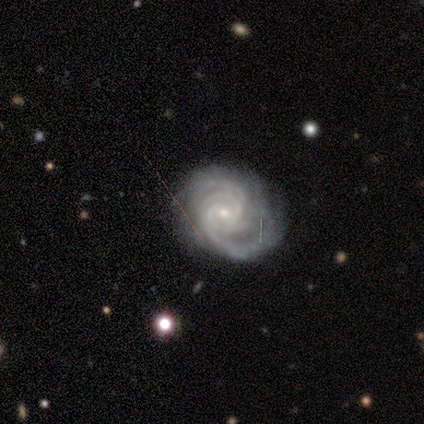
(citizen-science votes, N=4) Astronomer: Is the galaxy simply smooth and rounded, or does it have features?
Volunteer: featured or disk — 50%, tied with star or artifact at 50%.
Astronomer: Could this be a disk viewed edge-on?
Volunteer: no — 100%.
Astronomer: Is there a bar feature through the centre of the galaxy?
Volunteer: weak — 50%, tied with no at 50%.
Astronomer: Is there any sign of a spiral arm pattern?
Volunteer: yes — 100%.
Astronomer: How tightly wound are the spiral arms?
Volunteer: tight — 100%.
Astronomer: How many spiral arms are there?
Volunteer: more than 4 — 50%, tied with can't tell at 50%.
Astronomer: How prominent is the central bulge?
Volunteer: small — 100%.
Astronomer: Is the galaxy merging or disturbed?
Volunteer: none — 50%, tied with minor disturbance at 50%.